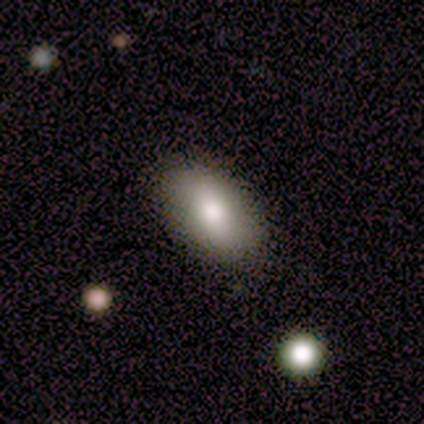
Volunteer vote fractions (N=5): A smooth galaxy with no disk features (80%) that is in between round and cigar-shaped (100%). Merging: none (100%).